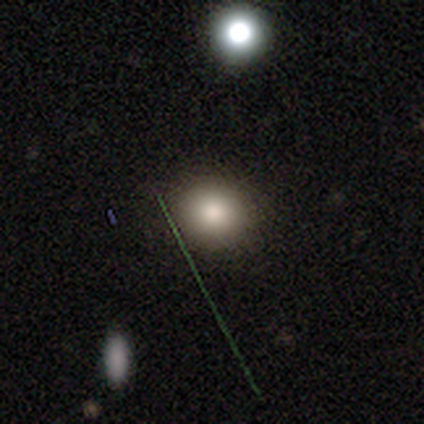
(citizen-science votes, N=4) This appears to be a smooth galaxy with no disk features (75%) that is round (100%). Merging: none (100%).